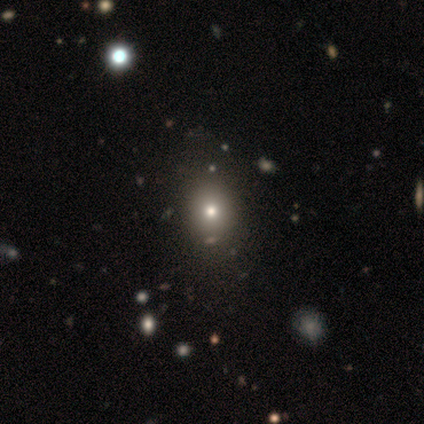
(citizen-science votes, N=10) Smooth or featured?
  - smooth: 90% *
  - star or artifact: 10%
  - featured or disk: 0%
How rounded?
  - round: 67% *
  - in between: 33%
  - cigar-shaped: 0%
Merging?
  - none: 89% *
  - minor disturbance: 11%
  - major disturbance: 0%
  - merger: 0%